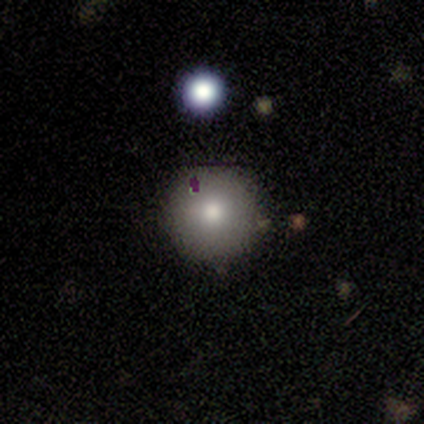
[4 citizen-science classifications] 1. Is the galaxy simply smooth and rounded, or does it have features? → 50% smooth, 25% featured or disk, 25% star or artifact.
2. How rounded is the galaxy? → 100% round, 0% in between, 0% cigar-shaped.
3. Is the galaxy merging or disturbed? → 100% none, 0% minor disturbance, 0% major disturbance, 0% merger.